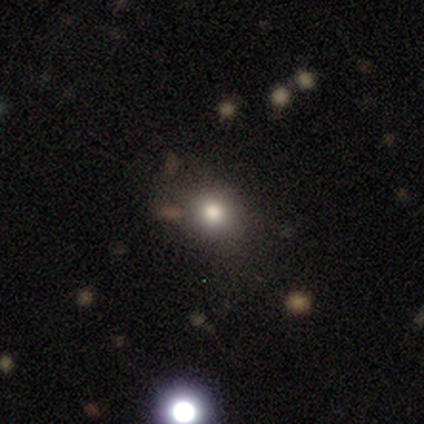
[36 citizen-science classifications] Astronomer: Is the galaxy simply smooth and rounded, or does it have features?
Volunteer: smooth — 67%.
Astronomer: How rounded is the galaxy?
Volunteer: round — 71%.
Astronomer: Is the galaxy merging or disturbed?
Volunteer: none — 78%.